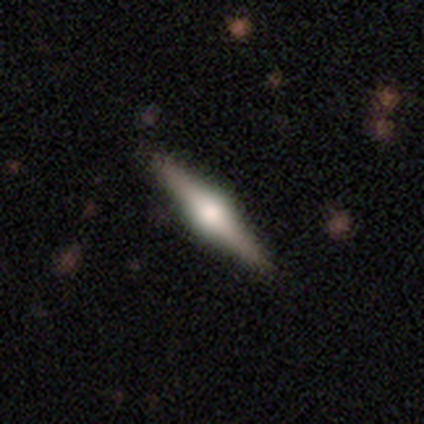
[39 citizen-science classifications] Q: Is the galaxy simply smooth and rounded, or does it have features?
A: featured or disk — 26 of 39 (67%).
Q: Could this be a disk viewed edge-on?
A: yes — 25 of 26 (96%).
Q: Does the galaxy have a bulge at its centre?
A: rounded — 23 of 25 (92%).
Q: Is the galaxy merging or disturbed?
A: none — 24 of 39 (62%).